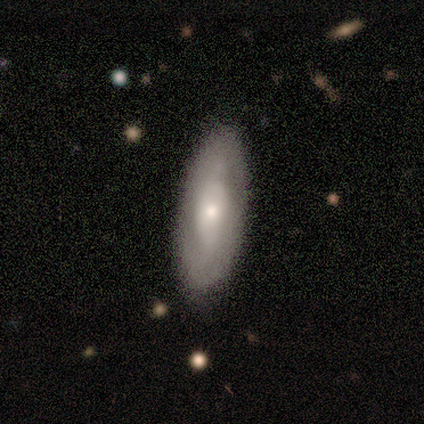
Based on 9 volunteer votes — Q: Smooth or featured?
A: smooth (56%); runner-up: featured or disk (44%)
Q: How rounded?
A: in between (80%); runner-up: cigar-shaped (20%)
Q: Merging?
A: none (56%); runner-up: minor disturbance (33%)